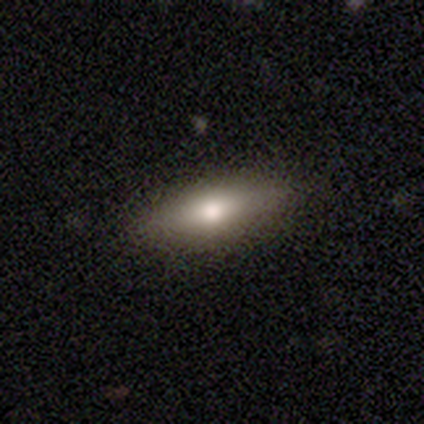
A smooth galaxy with no disk features (60%) that is cigar-shaped (67%). Merging: none (100%).